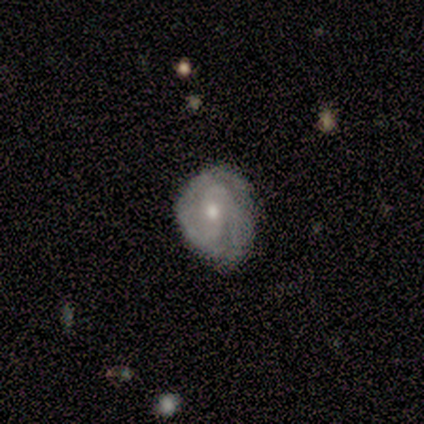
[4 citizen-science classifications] Morphology: type=featured or disk (75%); edge-on=no (67%); bar=strong (50%, tied with no); spiral arms=yes (100%); winding=tight (100%); arm count=2 (100%); bulge=moderate (100%); merging=minor disturbance (75%).